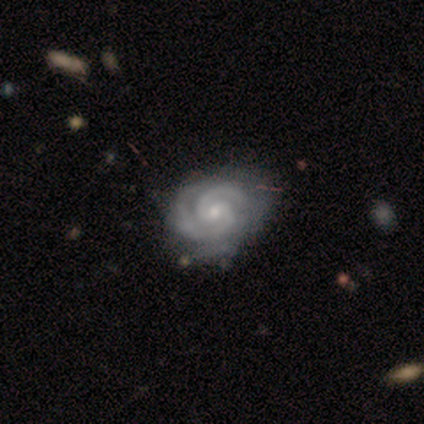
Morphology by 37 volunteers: smooth-or-featured: featured or disk: 95% | smooth: 3% | star or artifact: 3%
  disk-edge-on: no: 100% | yes: 0%
    bar: no: 57% | weak: 37% | strong: 6%
    has-spiral-arms: yes: 97% | no: 3%
      spiral-winding: tight: 85% | medium: 9% | loose: 6%
      spiral-arm-count: 2: 56% | 3: 29% | can't tell: 15% | 1: 0% | 4: 0% | more than 4: 0%
    bulge-size: small: 71% | moderate: 26% | none: 3% | dominant: 0% | large: 0%
  merging: none: 69% | minor disturbance: 28% | merger: 3% | major disturbance: 0%